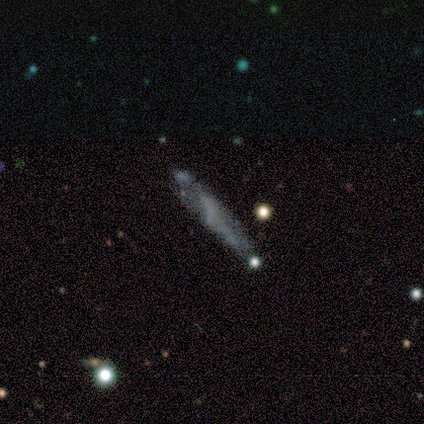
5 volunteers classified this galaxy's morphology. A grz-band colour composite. It shows a smooth galaxy with no disk features (40%, tied with featured or disk) that is cigar-shaped (100%). Merging: none (50%).